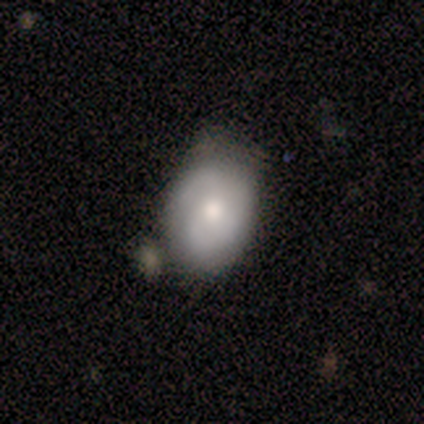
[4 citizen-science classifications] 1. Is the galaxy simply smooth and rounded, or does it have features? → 50% smooth (tied), 50% featured or disk (tied), 0% star or artifact.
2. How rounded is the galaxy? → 50% round (tied), 50% in between (tied), 0% cigar-shaped.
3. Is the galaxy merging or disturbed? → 75% none, 25% merger, 0% minor disturbance, 0% major disturbance.